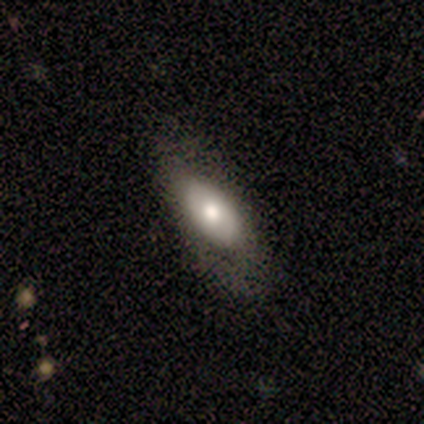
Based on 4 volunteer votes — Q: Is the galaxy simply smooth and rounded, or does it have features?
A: smooth — 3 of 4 (75%).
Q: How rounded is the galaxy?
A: in between — 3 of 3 (100%).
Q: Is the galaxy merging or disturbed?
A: none — 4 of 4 (100%).